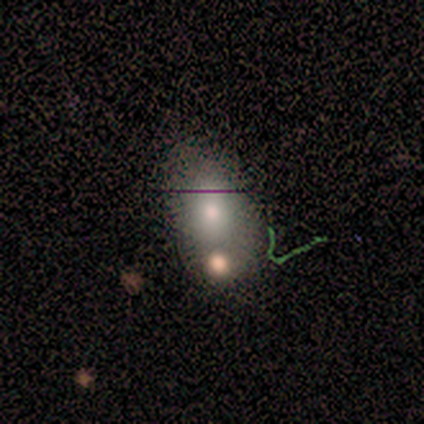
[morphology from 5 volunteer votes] Smooth or featured: smooth — 100%
How rounded: round — 60% (in between — 40%)
Merging: none — 40% (minor disturbance — 20%)